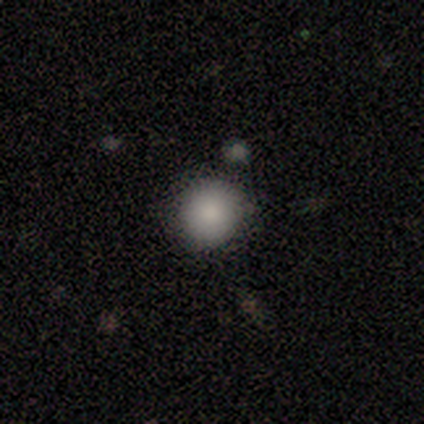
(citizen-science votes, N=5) Smooth or featured: smooth — 60% (featured or disk — 20%)
How rounded: round — 100%
Merging: none — 100%